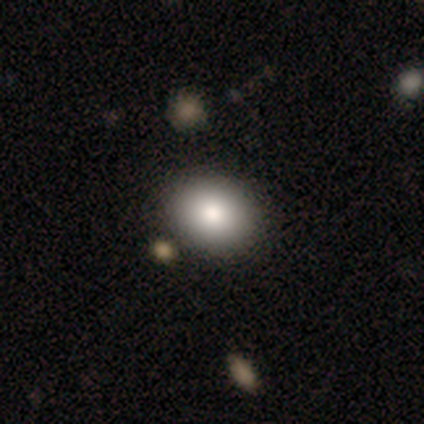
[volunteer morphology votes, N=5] smooth 60%, featured or disk 40%, star or artifact 0%. Down the decision tree: how rounded — in between (100%); merging — none (100%).